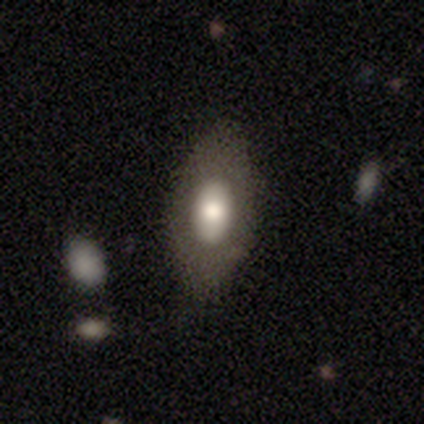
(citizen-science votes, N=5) Smooth or featured? 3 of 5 (60%) said smooth. How rounded? 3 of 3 (100%) said in between. Merging? 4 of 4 (100%) said none.